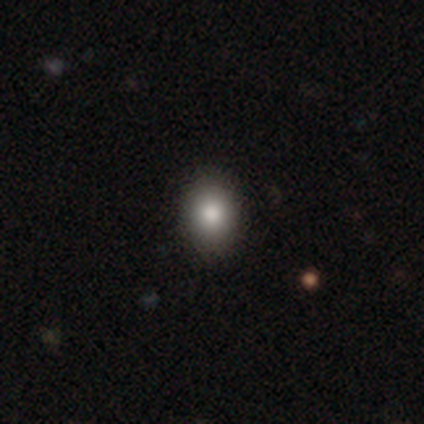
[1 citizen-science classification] Smooth or featured: smooth — 100%
How rounded: in between — 100%
Merging: none — 100%